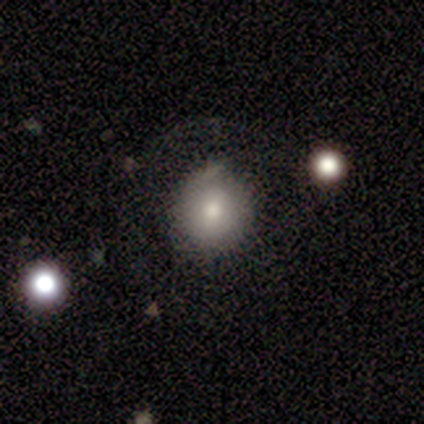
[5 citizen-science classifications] smooth 60%, featured or disk 40%, star or artifact 0%. Down the decision tree: how rounded — round (67%); merging — none (40%, tied with minor disturbance).